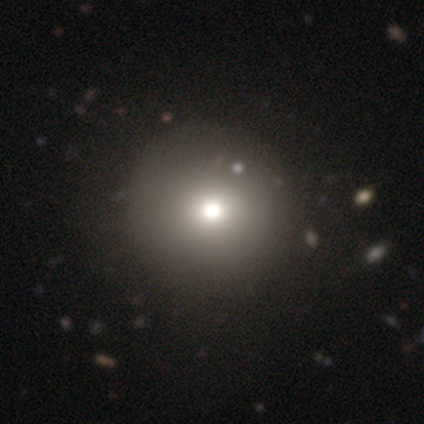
smooth-or-featured: smooth: 58% | star or artifact: 33% | featured or disk: 8%
  how-rounded: round: 86% | in between: 14% | cigar-shaped: 0%
  merging: none: 88% | minor disturbance: 12% | major disturbance: 0% | merger: 0%